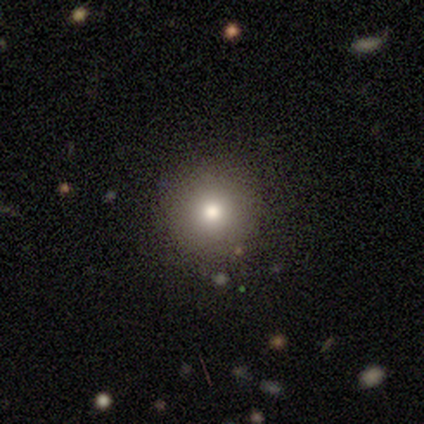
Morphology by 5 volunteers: A smooth galaxy with no disk features (60%) that is round (100%).

Vote fractions:
- Smooth or featured? smooth: 60% / featured or disk: 20% / star or artifact: 20%
- How rounded? round: 100% / in between: 0% / cigar-shaped: 0%
- Merging? none: 100% / minor disturbance: 0% / major disturbance: 0% / merger: 0%